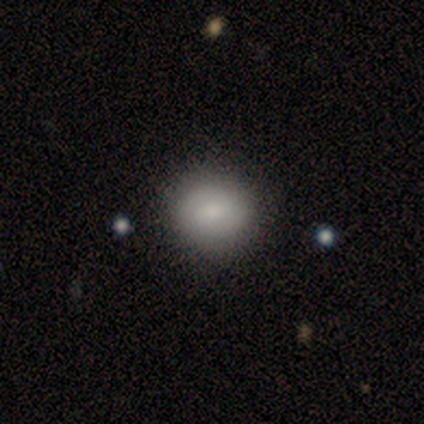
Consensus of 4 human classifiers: Smooth or featured? 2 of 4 (50%, tied with featured or disk) said smooth. How rounded? 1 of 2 (50%, tied with in between) said round. Merging? 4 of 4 (100%) said none.